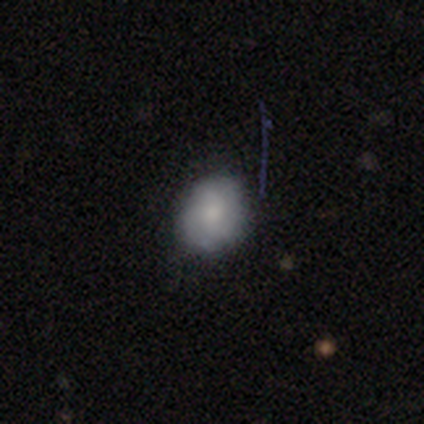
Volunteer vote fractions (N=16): smooth-or-featured: smooth: 81% | star or artifact: 12% | featured or disk: 6%
  how-rounded: in between: 62% | round: 38% | cigar-shaped: 0%
  merging: none: 100% | minor disturbance: 0% | major disturbance: 0% | merger: 0%